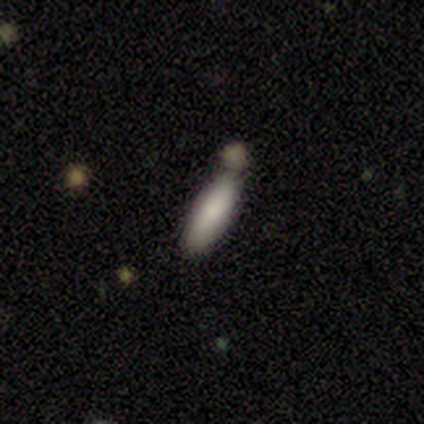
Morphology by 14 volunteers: A smooth galaxy with no disk features (93%) that is cigar-shaped (54%). Merging: none (64%).